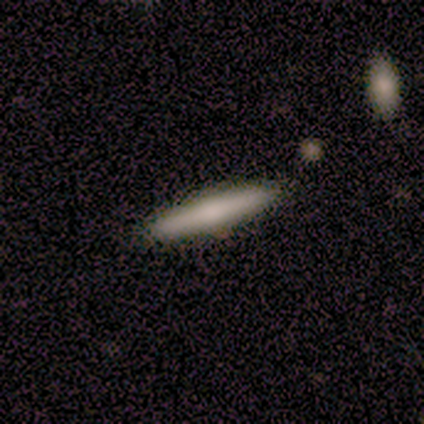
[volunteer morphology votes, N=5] Smooth or featured? 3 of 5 (60%) said featured or disk. Edge-on disk? 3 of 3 (100%) said yes. Edge-on bulge? 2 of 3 (67%) said rounded. Merging? 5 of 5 (100%) said none.